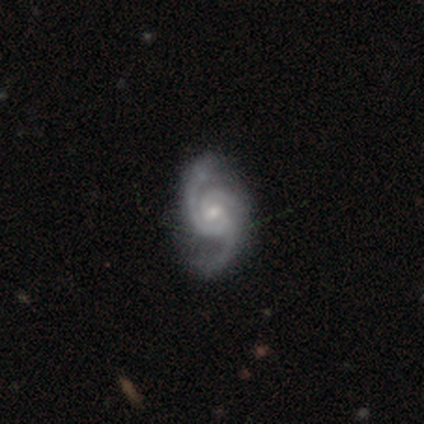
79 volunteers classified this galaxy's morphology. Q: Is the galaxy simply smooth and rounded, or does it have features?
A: featured or disk — 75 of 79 (95%).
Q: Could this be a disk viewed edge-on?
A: no — 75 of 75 (100%).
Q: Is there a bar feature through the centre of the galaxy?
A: no — 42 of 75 (56%).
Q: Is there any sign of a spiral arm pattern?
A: yes — 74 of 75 (99%).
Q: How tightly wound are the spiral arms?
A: medium — 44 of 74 (59%).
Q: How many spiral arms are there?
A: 3 — 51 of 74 (69%).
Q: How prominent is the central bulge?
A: small — 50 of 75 (67%).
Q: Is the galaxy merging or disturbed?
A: none — 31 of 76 (41%).